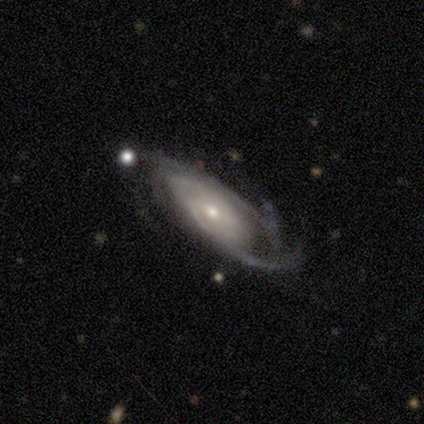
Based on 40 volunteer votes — Q: Smooth or featured?
A: featured or disk (92%); runner-up: smooth (5%)
Q: Edge-on disk?
A: no (95%); runner-up: yes (5%)
Q: Bar?
A: weak (54%); runner-up: no (43%)
Q: Spiral arms?
A: yes (100%)
Q: Spiral winding?
A: tight (49%); runner-up: medium (46%)
Q: Spiral arm count?
A: can't tell (49%); runner-up: 2 (23%)
Q: Bulge size?
A: small (69%); runner-up: moderate (29%)
Q: Merging?
A: none (62%); runner-up: minor disturbance (21%)